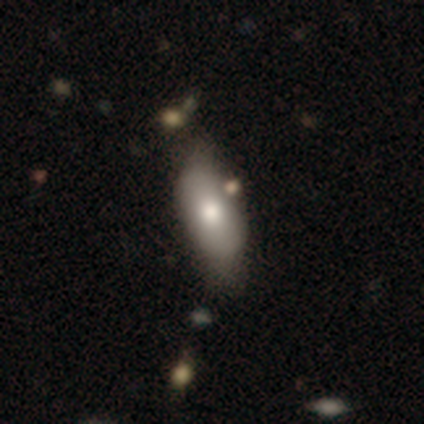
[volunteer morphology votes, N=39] Smooth or featured? smooth (79%)
How rounded? in between (77%)
Merging? none (86%)